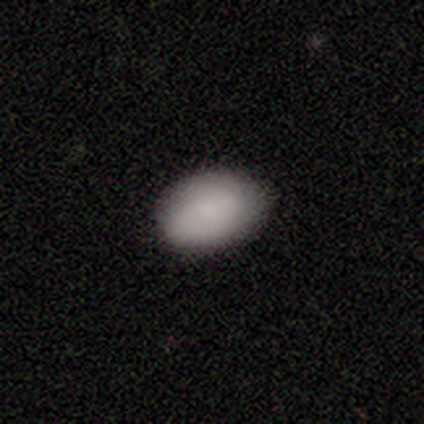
Morphology: type=smooth (80%); roundness=in between (75%); merging=none (100%).